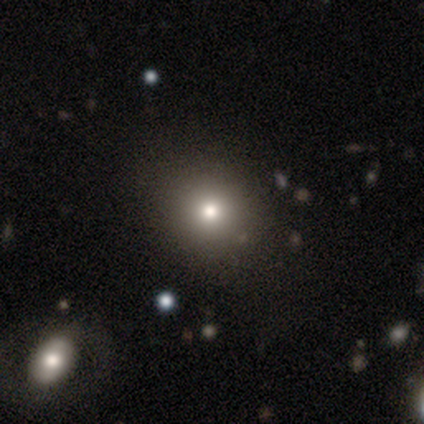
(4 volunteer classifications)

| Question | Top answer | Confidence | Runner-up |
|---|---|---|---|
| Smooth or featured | smooth | 75% | featured or disk (25%) |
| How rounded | round | 100% | — |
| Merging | none | 100% | — |